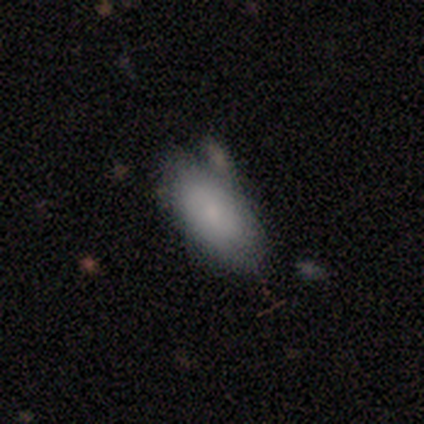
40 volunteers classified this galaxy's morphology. Overall: smooth (78%). How rounded: in between (97%). Merging: none (58%; minor disturbance 25%).